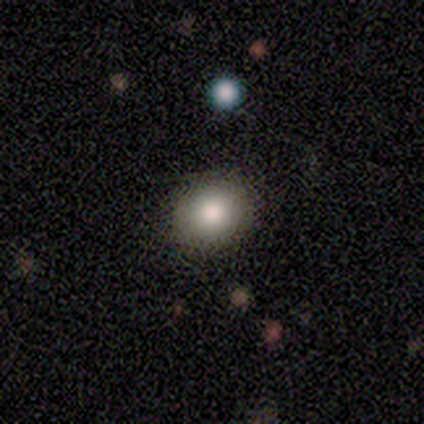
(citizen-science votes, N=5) This appears to be a smooth galaxy with no disk features (80%) that is round (100%). Merging: none (100%).